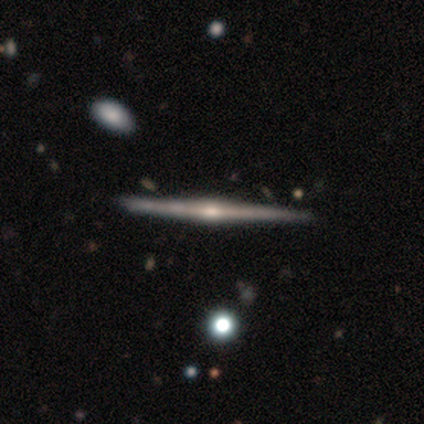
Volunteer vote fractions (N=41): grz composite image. It shows a featured or disk galaxy (88%) viewed edge-on (100%) with a rounded central bulge (72%). Merging: none (74%).